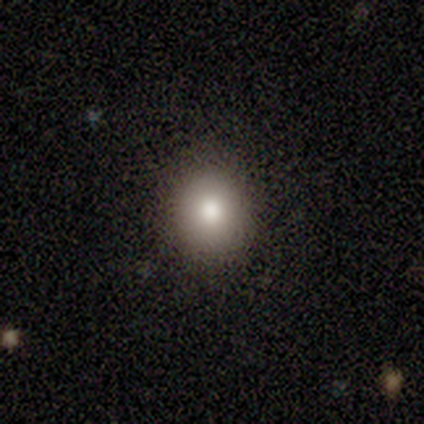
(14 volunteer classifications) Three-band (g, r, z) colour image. It shows a smooth galaxy with no disk features (86%) that is round (75%). Merging: none (92%).